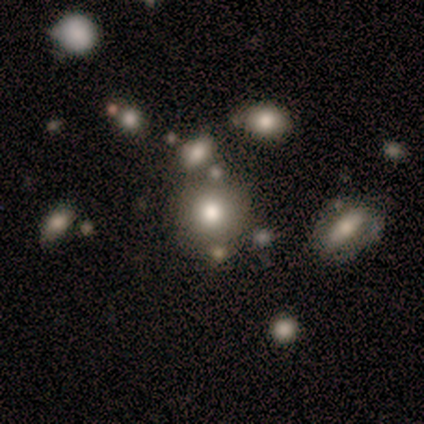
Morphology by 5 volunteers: Smooth or featured? smooth (60%)
How rounded? round (100%)
Merging? none (100%)